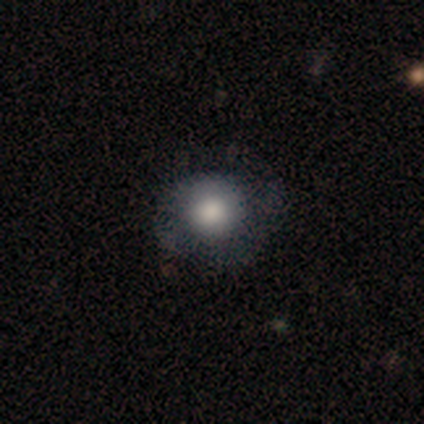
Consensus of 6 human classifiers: Smooth or featured: smooth — 83% (featured or disk — 17%)
How rounded: round — 80% (in between — 20%)
Merging: none — 100%